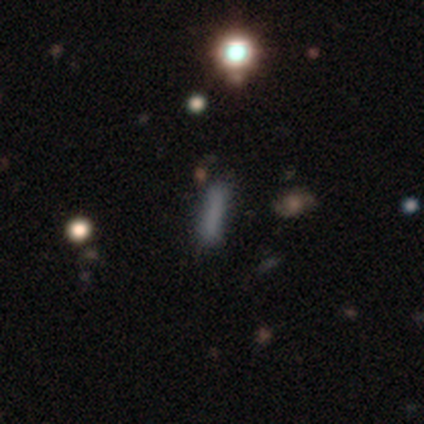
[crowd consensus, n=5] A smooth galaxy with no disk features (100%) that is cigar-shaped (100%).

Vote fractions:
- Smooth or featured? smooth: 100% / featured or disk: 0% / star or artifact: 0%
- How rounded? cigar-shaped: 100% / round: 0% / in between: 0%
- Merging? none: 80% / minor disturbance: 20% / major disturbance: 0% / merger: 0%